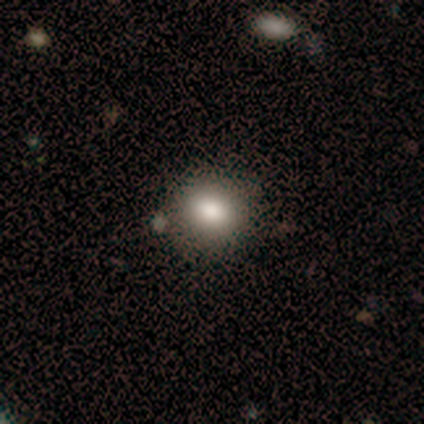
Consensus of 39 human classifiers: This is clearly a smooth galaxy (87%). How rounded: likely round (74%). Merging: clearly none (89%).